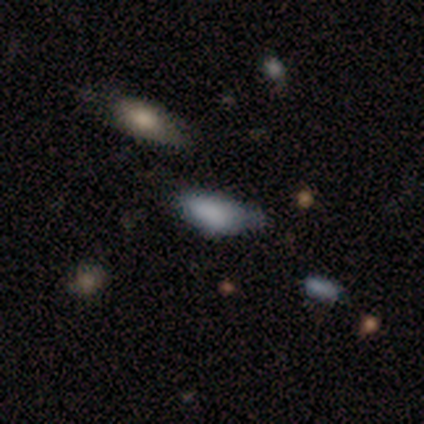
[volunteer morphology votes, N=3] star or artifact 67%, smooth 33%, featured or disk 0%.